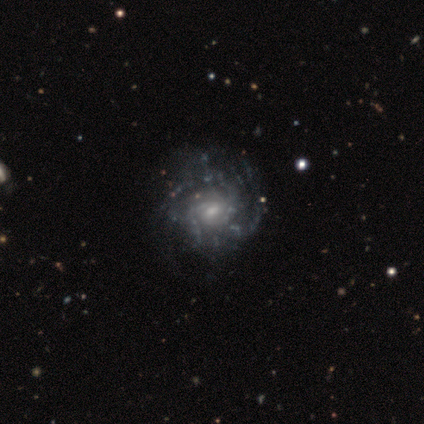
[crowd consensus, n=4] Smooth or featured? 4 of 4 (100%) said featured or disk. Edge-on disk? 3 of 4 (75%) said no. Bar? 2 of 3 (67%) said weak. Spiral arms? 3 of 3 (100%) said yes. Spiral winding? 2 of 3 (67%) said tight. Spiral arm count? 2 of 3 (67%) said 2. Bulge size? 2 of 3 (67%) said small. Merging? 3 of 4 (75%) said none.